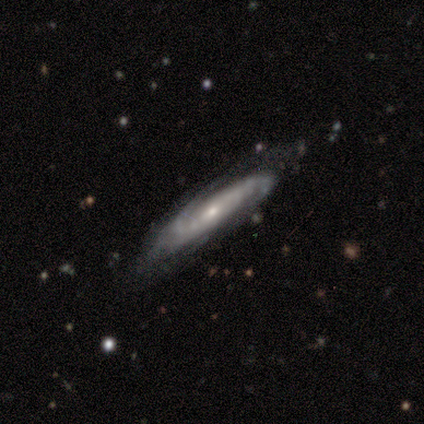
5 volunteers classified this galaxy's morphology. This is likely a featured or disk galaxy (60%). It is likely not viewed edge-on (67%). Bar: possibly strong (50%, tied with no). Spiral arm pattern: clearly yes (100%). Spiral arm count: possibly 2 (50%, tied with 3). Spiral winding: possibly medium (50%, tied with loose). Central bulge: clearly small (100%). Merging: possibly none (50%, tied with minor disturbance).